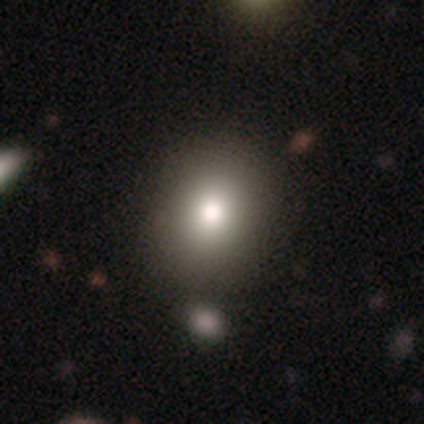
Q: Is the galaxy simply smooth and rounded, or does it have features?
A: smooth — 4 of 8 (50%).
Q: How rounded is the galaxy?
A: round — 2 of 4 (50%, tied with in between).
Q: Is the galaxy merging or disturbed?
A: none — 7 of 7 (100%).